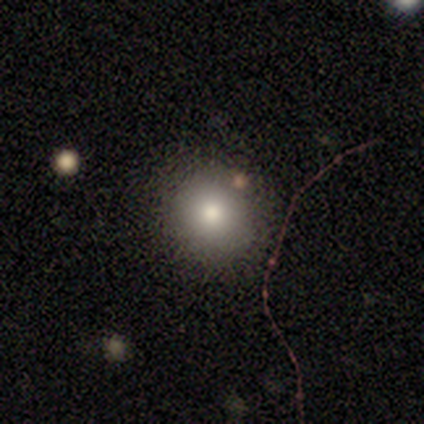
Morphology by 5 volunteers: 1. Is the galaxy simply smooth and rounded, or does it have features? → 100% smooth, 0% featured or disk, 0% star or artifact.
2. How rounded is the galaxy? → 100% round, 0% in between, 0% cigar-shaped.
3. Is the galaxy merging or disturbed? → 60% minor disturbance, 40% none, 0% major disturbance, 0% merger.